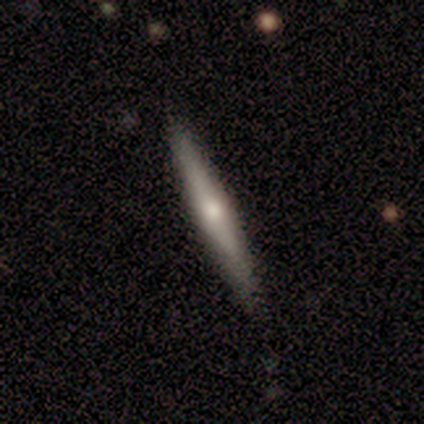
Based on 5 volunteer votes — This is likely a smooth galaxy (60%). How rounded: clearly cigar-shaped (100%). Merging: likely none (75%).